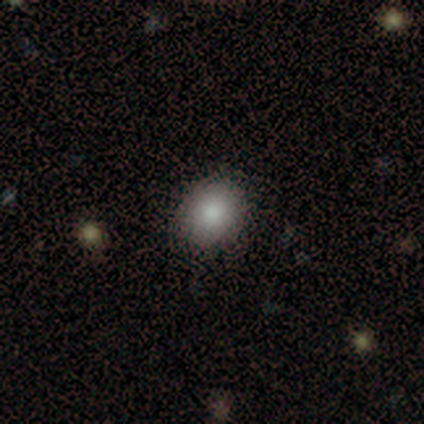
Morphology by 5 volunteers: Smooth or featured?
  - smooth: 100% *
  - featured or disk: 0%
  - star or artifact: 0%
How rounded?
  - in between: 60% *
  - round: 40%
  - cigar-shaped: 0%
Merging?
  - none: 100% *
  - minor disturbance: 0%
  - major disturbance: 0%
  - merger: 0%